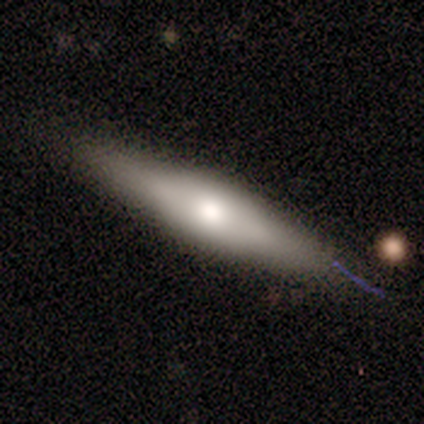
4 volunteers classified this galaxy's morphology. This appears to be a smooth galaxy with no disk features (50%, tied with featured or disk) that is cigar-shaped (100%). Merging: none (75%).